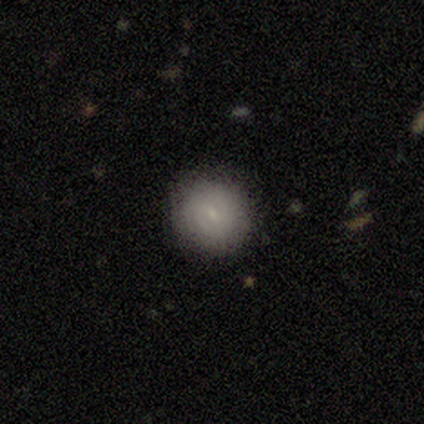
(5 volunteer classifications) Smooth or featured?
  - featured or disk: 60% *
  - smooth: 40%
  - star or artifact: 0%
Edge-on disk?
  - no: 100% *
  - yes: 0%
Bar?
  - no: 67% *
  - weak: 33%
  - strong: 0%
Spiral arms?
  - yes: 67% *
  - no: 33%
Spiral winding?
  - tight: 100% *
  - medium: 0%
  - loose: 0%
Spiral arm count?
  - 2: 50% * (tied)
  - 3: 50% * (tied)
  - 1: 0%
  - 4: 0%
  - more than 4: 0%
  - can't tell: 0%
Bulge size?
  - small: 100% *
  - dominant: 0%
  - large: 0%
  - moderate: 0%
  - none: 0%
Merging?
  - none: 80% *
  - minor disturbance: 20%
  - major disturbance: 0%
  - merger: 0%